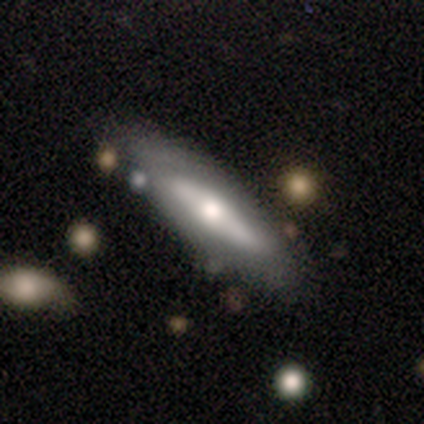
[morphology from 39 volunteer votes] Smooth or featured: featured or disk — 54% (smooth — 36%)
Edge-on disk: no — 57% (yes — 43%)
Bar: no — 83% (strong — 8%)
Spiral arms: no — 67% (yes — 33%)
Bulge size: moderate — 50% (small — 33%)
Merging: none — 69% (major disturbance — 17%)